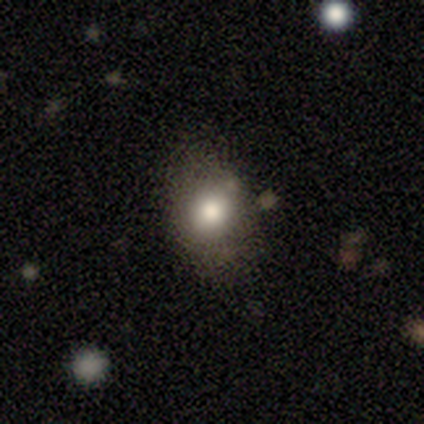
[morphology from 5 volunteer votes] Smooth or featured?
  - smooth: 100% *
  - featured or disk: 0%
  - star or artifact: 0%
How rounded?
  - in between: 60% *
  - round: 40%
  - cigar-shaped: 0%
Merging?
  - none: 100% *
  - minor disturbance: 0%
  - major disturbance: 0%
  - merger: 0%